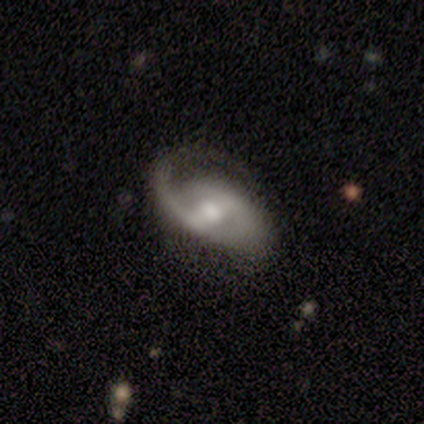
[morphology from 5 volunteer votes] Volunteers were most divided on "merging": minor disturbance: 60%, none: 40%, major disturbance: 0%, merger: 0%. More confident: smooth or featured — featured or disk (100%); edge-on disk — no (100%); spiral arms — yes (100%); spiral arm count — 2 (100%); bar — strong (80%); bulge size — moderate (80%); spiral winding — medium (60%).